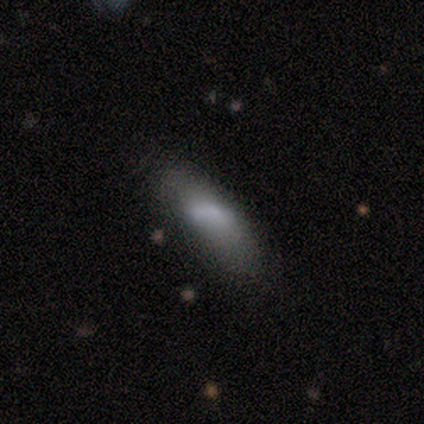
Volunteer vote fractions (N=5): This appears to be a smooth galaxy with no disk features (100%) that is in between round and cigar-shaped (100%). Merging: none (80%).